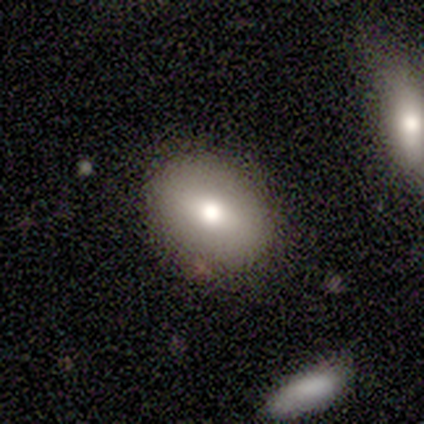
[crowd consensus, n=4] Q: Smooth or featured?
A: smooth (50%); tied with: featured or disk (50%)
Q: How rounded?
A: in between (100%)
Q: Merging?
A: none (75%); runner-up: minor disturbance (25%)